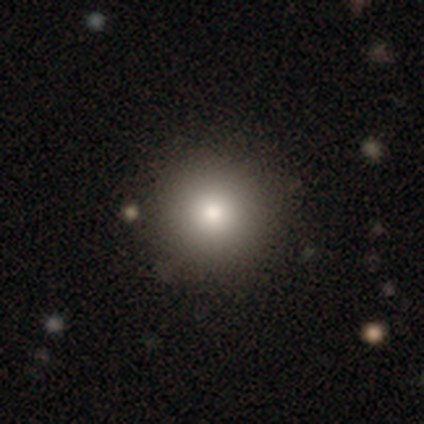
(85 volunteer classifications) Smooth or featured? 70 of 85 (82%) said smooth. How rounded? 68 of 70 (97%) said round. Merging? 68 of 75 (91%) said none.